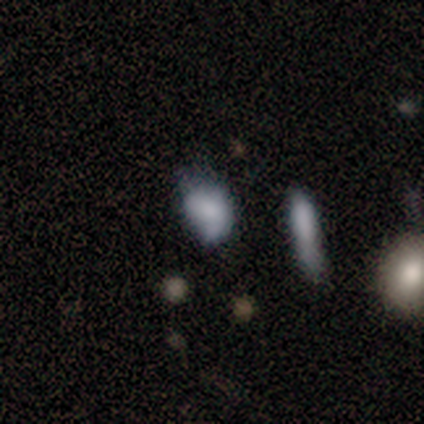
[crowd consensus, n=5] Smooth or featured: smooth — 80% (featured or disk — 20%)
How rounded: in between — 100%
Merging: minor disturbance — 60% (none — 40%)